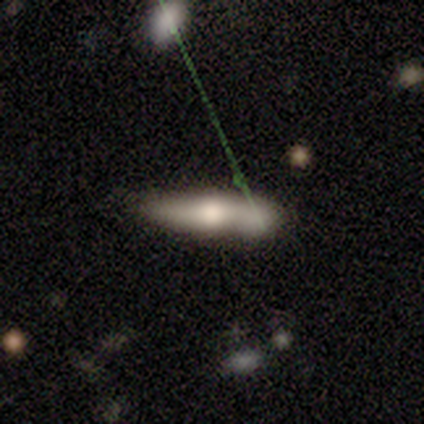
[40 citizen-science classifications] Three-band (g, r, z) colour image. It shows a smooth galaxy with no disk features (55%) that is cigar-shaped (64%). Merging: none (50%).